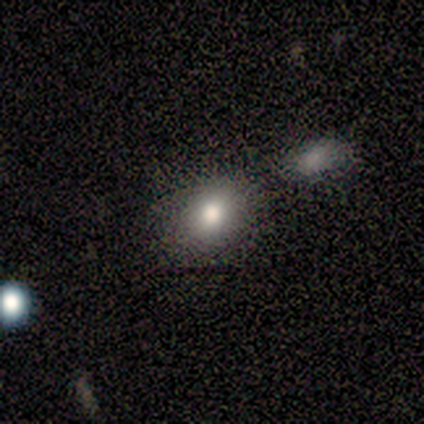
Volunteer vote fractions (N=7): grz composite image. It shows a smooth galaxy with no disk features (71%) that is in between round and cigar-shaped (60%). Merging: none (80%).